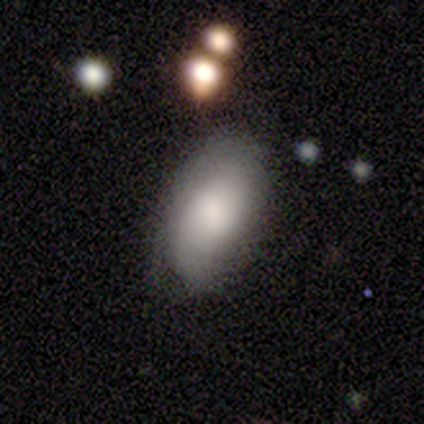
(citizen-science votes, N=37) Smooth or featured? smooth (89%)
How rounded? in between (97%)
Merging? none (64%)